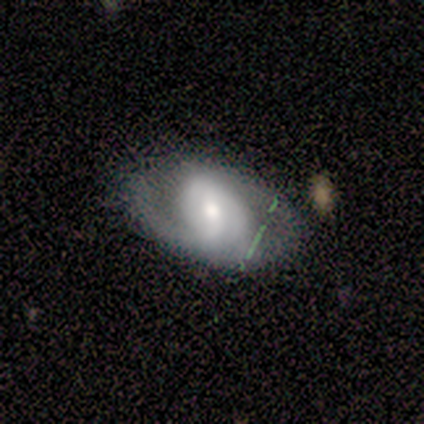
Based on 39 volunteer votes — Overall: featured or disk (87%). Edge-on disk: no (88%). Bar: weak (53%; strong 33%). Spiral arms: yes (83%). Spiral arm count: 2 (64%). Spiral winding: medium (64%). Bulge size: moderate (73%). Merging: none (67%).